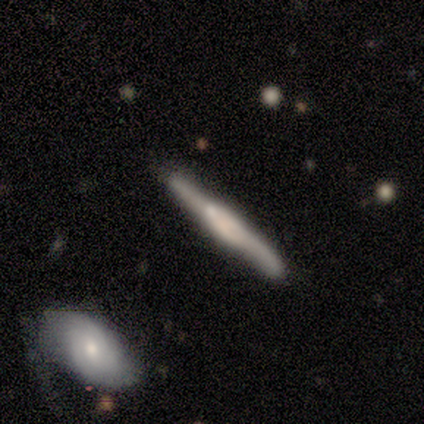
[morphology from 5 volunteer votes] Volunteers were most divided on "merging": minor disturbance: 60%, none: 40%, major disturbance: 0%, merger: 0%. More confident: edge-on disk — yes (100%); edge-on bulge — boxy (100%); smooth or featured — featured or disk (80%).